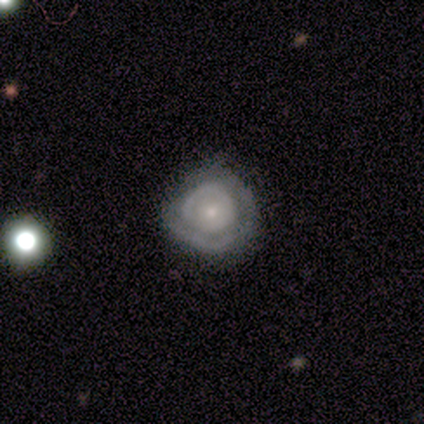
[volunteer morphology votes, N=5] Overall: smooth (60%; featured or disk 40%). How rounded: round (67%; in between 33%). Merging: none (60%; minor disturbance 20%).